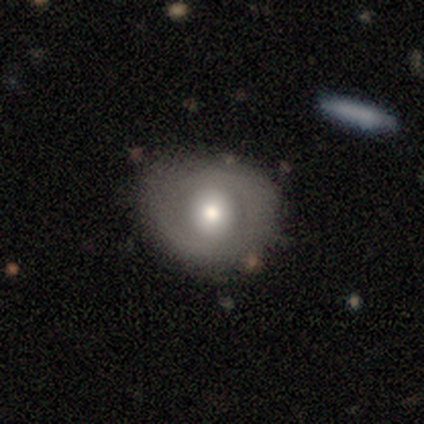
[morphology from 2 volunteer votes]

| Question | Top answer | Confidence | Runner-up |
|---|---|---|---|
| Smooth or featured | smooth | 50% | tied: featured or disk (50%) |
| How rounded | round | 100% | — |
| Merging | none | 100% | — |